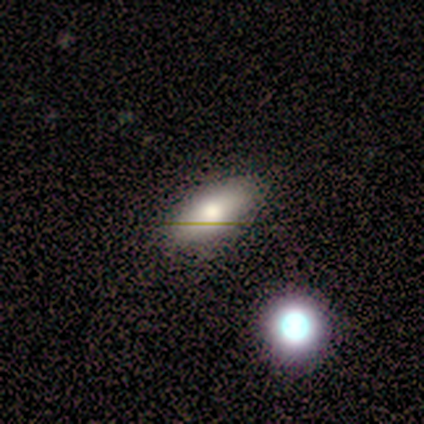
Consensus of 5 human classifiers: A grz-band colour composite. It shows a smooth galaxy with no disk features (40%, tied with star or artifact) that is in between round and cigar-shaped (50%, tied with cigar-shaped). Merging: none (100%).